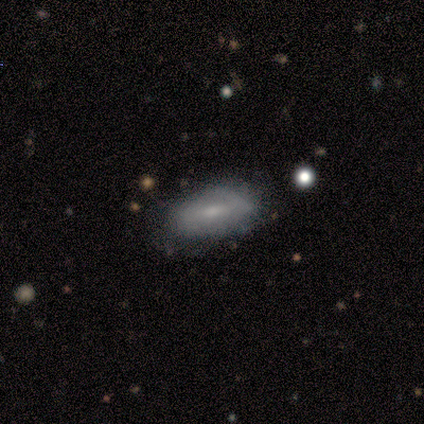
A featured or disk galaxy (80%) with a strong bar (50%, tied with weak), 2 (67%) tight (33%, tied with medium and loose) spiral arms (75%) and a moderate central bulge (50%, tied with small). Merging: none (80%).